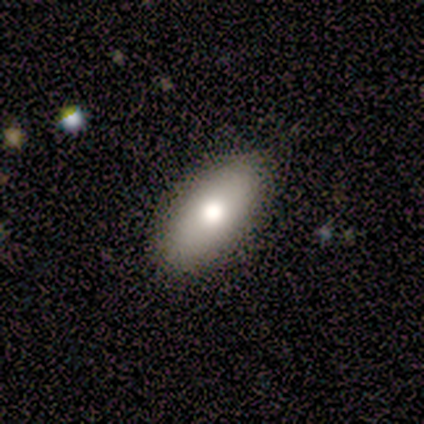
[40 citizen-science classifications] A smooth galaxy with no disk features (82%) that is in between round and cigar-shaped (88%).

Vote fractions:
- Smooth or featured? smooth: 82% / featured or disk: 12% / star or artifact: 5%
- How rounded? in between: 88% / cigar-shaped: 9% / round: 3%
- Merging? none: 84% / minor disturbance: 16% / major disturbance: 0% / merger: 0%